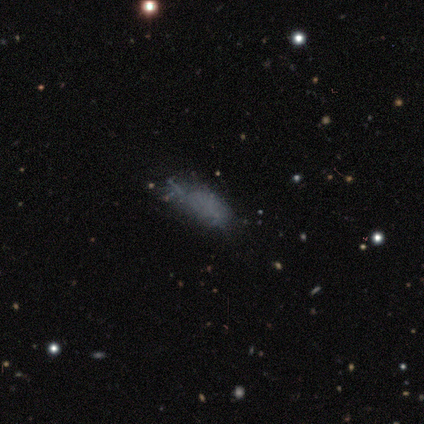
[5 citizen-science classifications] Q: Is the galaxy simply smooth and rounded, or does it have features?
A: smooth — 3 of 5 (60%).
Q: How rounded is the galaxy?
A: in between — 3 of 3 (100%).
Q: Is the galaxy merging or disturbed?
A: minor disturbance — 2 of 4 (50%).